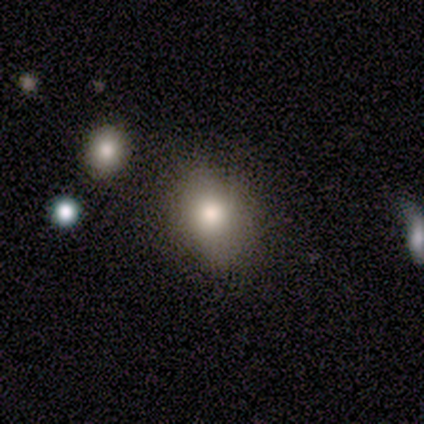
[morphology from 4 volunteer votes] smooth 100%, featured or disk 0%, star or artifact 0%. Down the decision tree: how rounded — in between (75%); merging — none (50%, tied with minor disturbance).